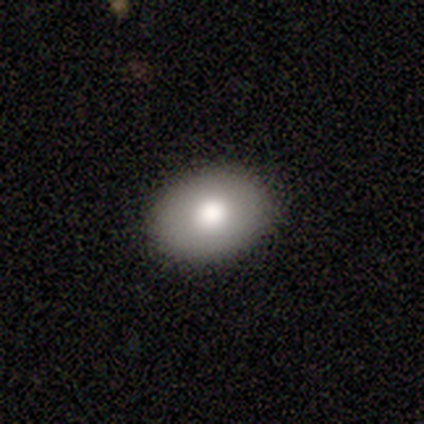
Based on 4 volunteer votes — Smooth or featured: smooth — 100%
How rounded: round — 50% (tied with in between — 50%)
Merging: none — 100%